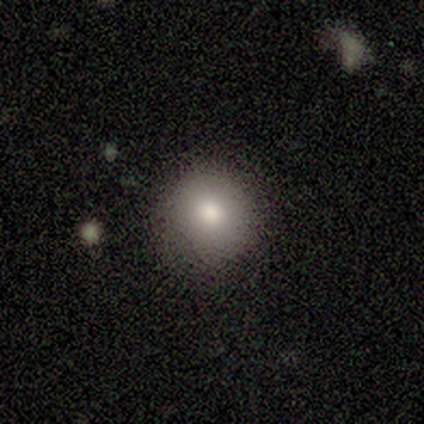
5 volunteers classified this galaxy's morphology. smooth 80%, featured or disk 20%, star or artifact 0%. Down the decision tree: how rounded — round (100%); merging — none (100%).